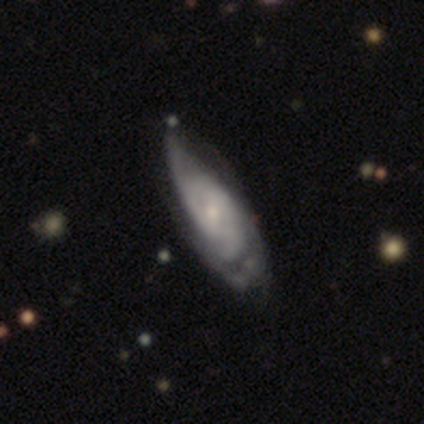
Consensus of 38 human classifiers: Overall: featured or disk (68%; smooth 29%). Edge-on disk: no (88%). Bar: no (48%; weak 43%). Spiral arms: yes (96%). Spiral arm count: can't tell (59%). Spiral winding: tight (45%, tied with medium). Bulge size: small (70%). Merging: minor disturbance (49%; none 38%).